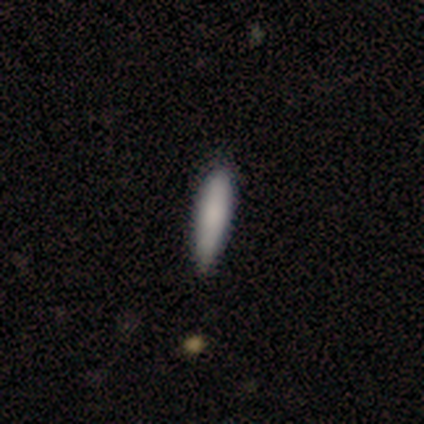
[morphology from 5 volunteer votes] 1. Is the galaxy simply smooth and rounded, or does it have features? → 100% smooth, 0% featured or disk, 0% star or artifact.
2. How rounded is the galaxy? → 80% cigar-shaped, 20% in between, 0% round.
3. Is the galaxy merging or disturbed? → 100% none, 0% minor disturbance, 0% major disturbance, 0% merger.